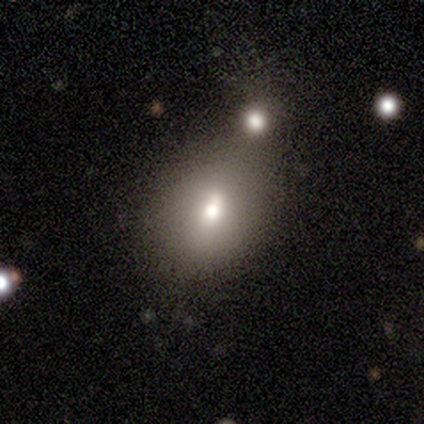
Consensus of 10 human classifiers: smooth_or_featured: smooth (p=0.80) [alt: featured or disk p=0.10]
how_rounded: in between (p=0.88) [alt: round p=0.12]
merging: merger (p=0.44) [alt: minor disturbance p=0.33]